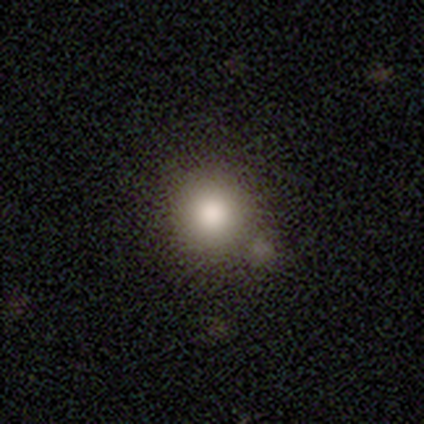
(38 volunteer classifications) This is clearly a smooth galaxy (82%). How rounded: clearly round (100%). Merging: possibly none (50%).